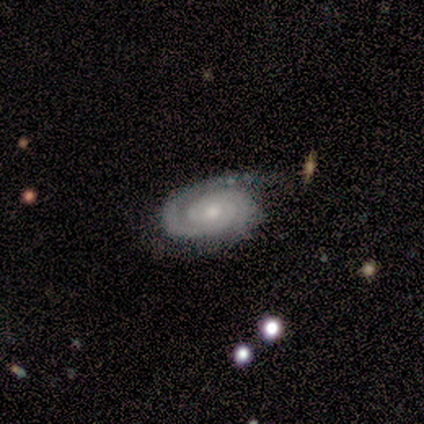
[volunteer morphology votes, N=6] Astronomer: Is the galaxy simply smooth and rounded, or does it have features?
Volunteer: featured or disk — 100%.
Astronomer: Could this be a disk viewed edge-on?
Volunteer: no — 100%.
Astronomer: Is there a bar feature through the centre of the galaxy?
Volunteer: no — 100%.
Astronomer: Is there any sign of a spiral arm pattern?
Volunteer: yes — 100%.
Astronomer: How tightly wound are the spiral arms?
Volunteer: tight — 100%.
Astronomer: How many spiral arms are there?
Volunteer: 2 — 83%.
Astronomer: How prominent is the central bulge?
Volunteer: moderate — 67%.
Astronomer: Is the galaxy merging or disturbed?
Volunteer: none — 50%, tied with minor disturbance at 50%.